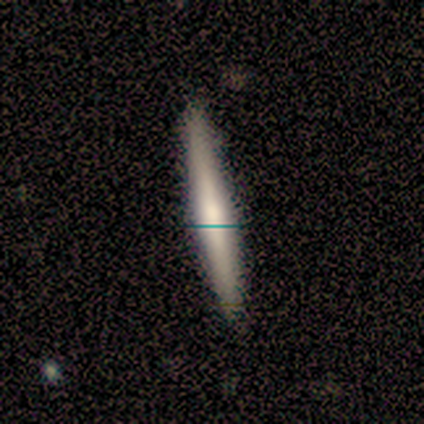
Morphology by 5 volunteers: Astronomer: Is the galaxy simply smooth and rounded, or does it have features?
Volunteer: featured or disk — 60% (runner-up: smooth, 40%).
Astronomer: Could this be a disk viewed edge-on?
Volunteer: yes — 100%.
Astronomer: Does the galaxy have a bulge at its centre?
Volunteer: rounded — 67%.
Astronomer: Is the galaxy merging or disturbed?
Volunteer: none — 100%.